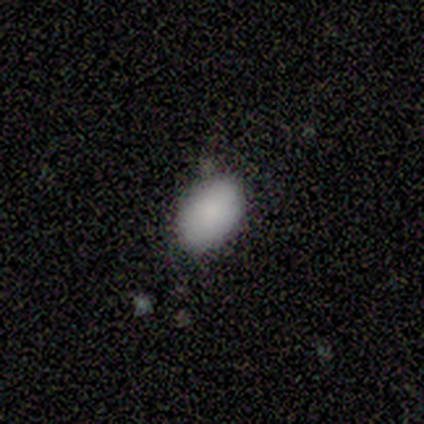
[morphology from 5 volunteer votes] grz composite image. It shows a star or artifact, not a galaxy (60%).